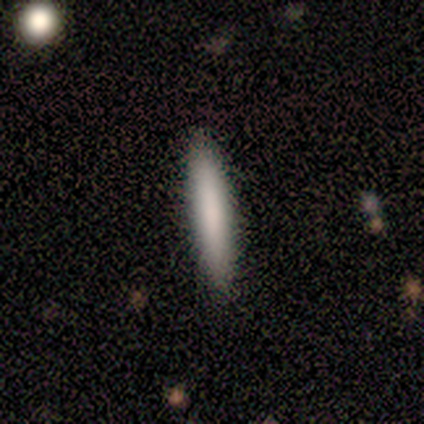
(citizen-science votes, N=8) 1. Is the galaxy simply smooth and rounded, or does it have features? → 75% smooth, 25% featured or disk, 0% star or artifact.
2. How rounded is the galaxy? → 100% cigar-shaped, 0% round, 0% in between.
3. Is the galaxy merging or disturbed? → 88% none, 12% merger, 0% minor disturbance, 0% major disturbance.